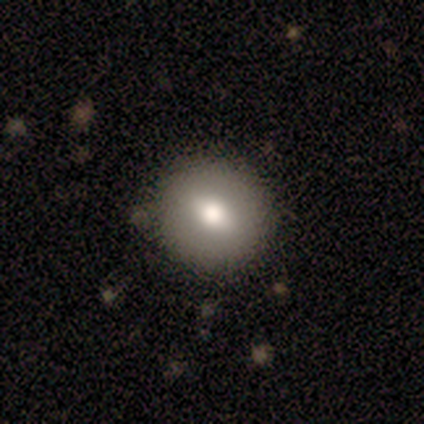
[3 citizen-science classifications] smooth_or_featured: smooth (p=0.67) [alt: featured or disk p=0.33]
how_rounded: round (p=1.00)
merging: none (p=1.00)